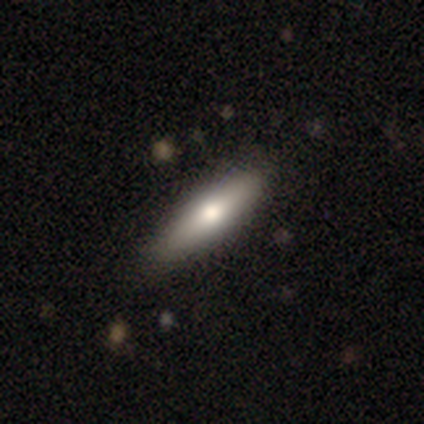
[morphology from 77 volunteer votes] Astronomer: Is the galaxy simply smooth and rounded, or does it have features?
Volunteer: smooth — 75%.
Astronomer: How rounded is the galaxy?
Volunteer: cigar-shaped — 64%.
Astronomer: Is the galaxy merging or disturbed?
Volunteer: none — 45%.